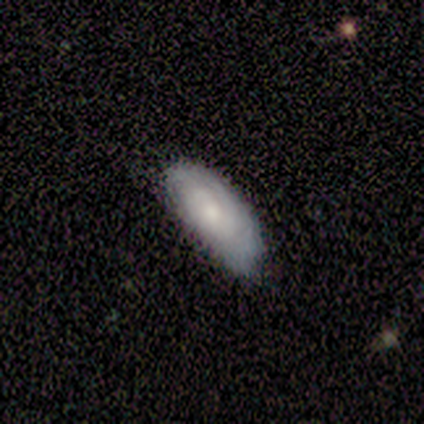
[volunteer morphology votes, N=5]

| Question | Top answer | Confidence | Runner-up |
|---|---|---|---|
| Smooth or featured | smooth | 60% | featured or disk (20%) |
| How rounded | in between | 100% | — |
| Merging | minor disturbance | 75% | none (25%) |